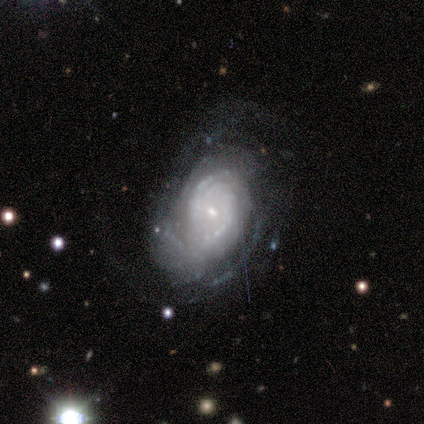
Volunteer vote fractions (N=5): A featured or disk galaxy (100%) with a weak bar (60%), 2 (40%) tight (100%) spiral arms (100%) and a small central bulge (80%).

Vote fractions:
- Smooth or featured? featured or disk: 100% / smooth: 0% / star or artifact: 0%
- Edge-on disk? no: 100% / yes: 0%
- Bar? weak: 60% / no: 40% / strong: 0%
- Spiral arms? yes: 100% / no: 0%
- Spiral winding? tight: 100% / medium: 0% / loose: 0%
- Spiral arm count? 2: 40% / 1: 20% / 4: 20% / can't tell: 20% / 3: 0% / more than 4: 0%
- Bulge size? small: 80% / moderate: 20% / dominant: 0% / large: 0% / none: 0%
- Merging? none: 60% / minor disturbance: 20% / major disturbance: 20% / merger: 0%